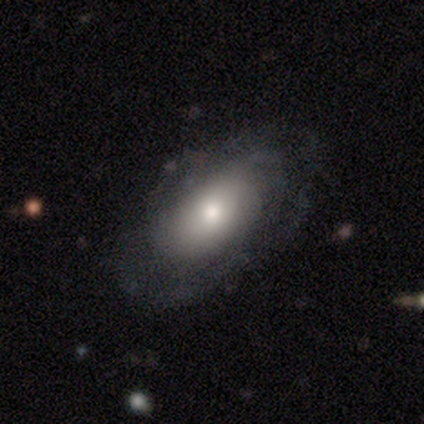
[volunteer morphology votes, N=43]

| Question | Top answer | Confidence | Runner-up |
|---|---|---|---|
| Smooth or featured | featured or disk | 53% | smooth (44%) |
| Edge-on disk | no | 83% | yes (17%) |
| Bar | no | 89% | weak (11%) |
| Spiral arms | yes | 79% | no (21%) |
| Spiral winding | tight | 40% | medium (33%) |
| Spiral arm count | can't tell | 93% | 1 (7%) |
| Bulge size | small | 47% | moderate (32%) |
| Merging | none | 67% | minor disturbance (24%) |